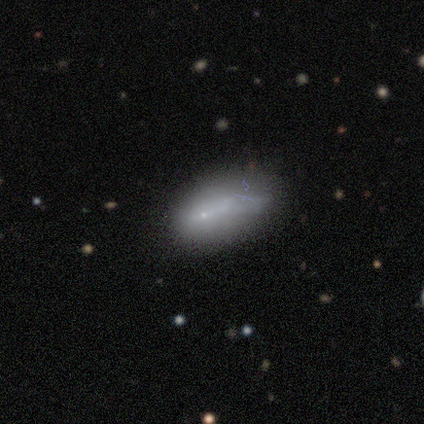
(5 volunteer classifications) Volunteers were most divided on "merging": none: 60%, minor disturbance: 20%, major disturbance: 20%, merger: 0%. More confident: smooth or featured — smooth (80%); how rounded — in between (75%).